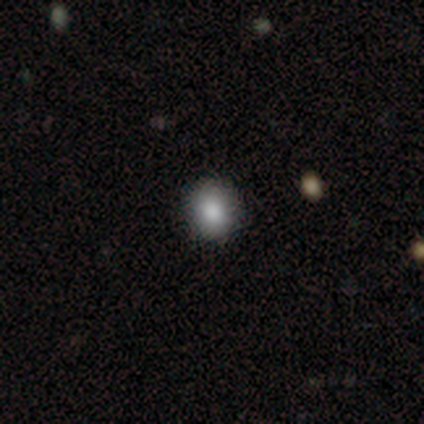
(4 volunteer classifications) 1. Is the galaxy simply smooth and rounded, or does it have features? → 50% smooth, 25% featured or disk, 25% star or artifact.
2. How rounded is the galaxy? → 50% round (tied), 50% in between (tied), 0% cigar-shaped.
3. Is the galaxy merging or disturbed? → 100% none, 0% minor disturbance, 0% major disturbance, 0% merger.